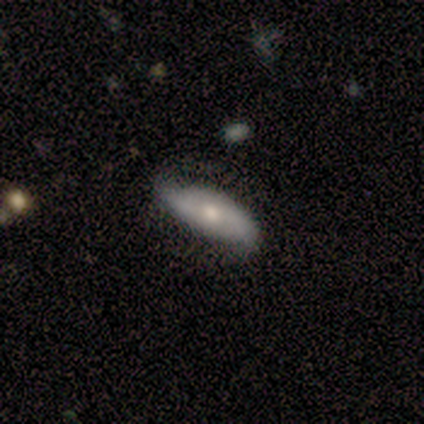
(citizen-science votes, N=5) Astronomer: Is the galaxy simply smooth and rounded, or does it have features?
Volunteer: featured or disk — 40%, tied with star or artifact at 40%.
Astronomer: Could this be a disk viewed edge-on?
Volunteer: no — 100%.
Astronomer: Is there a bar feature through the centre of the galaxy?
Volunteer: strong — 50%, tied with no at 50%.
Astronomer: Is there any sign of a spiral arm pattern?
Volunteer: yes — 50%, tied with no at 50%.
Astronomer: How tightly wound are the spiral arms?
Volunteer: loose — 100%.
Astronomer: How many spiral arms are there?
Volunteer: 2 — 100%.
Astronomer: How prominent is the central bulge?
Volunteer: moderate — 100%.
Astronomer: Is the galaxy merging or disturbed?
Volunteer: none — 100%.